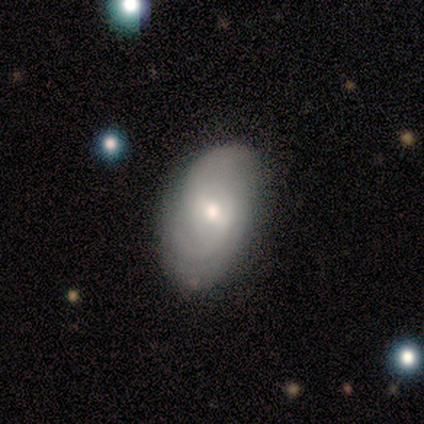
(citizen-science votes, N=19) smooth-or-featured: smooth: 58% | featured or disk: 32% | star or artifact: 11%
  how-rounded: in between: 82% | round: 9% | cigar-shaped: 9%
  merging: none: 41% | minor disturbance: 12% | major disturbance: 0% | merger: 0%